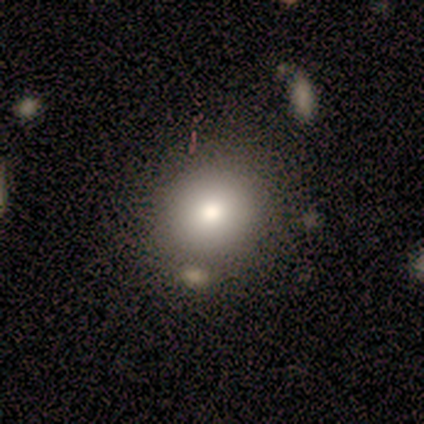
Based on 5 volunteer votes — smooth-or-featured: smooth: 80% | featured or disk: 20% | star or artifact: 0%
  how-rounded: round: 75% | in between: 25% | cigar-shaped: 0%
  merging: none: 40% (tied) | merger: 40% (tied) | minor disturbance: 20% | major disturbance: 0%